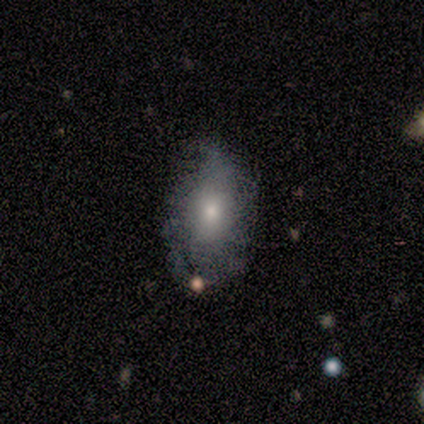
Overall: smooth (62%; featured or disk 33%). How rounded: in between (88%). Merging: minor disturbance (51%; none 41%).